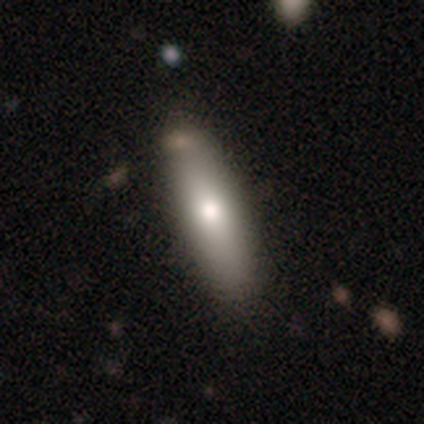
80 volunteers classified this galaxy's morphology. Smooth or featured?
  - smooth: 72% *
  - featured or disk: 25%
  - star or artifact: 2%
How rounded?
  - cigar-shaped: 57% *
  - in between: 43%
  - round: 0%
Merging?
  - none: 45% *
  - minor disturbance: 6%
  - major disturbance: 1%
  - merger: 1%